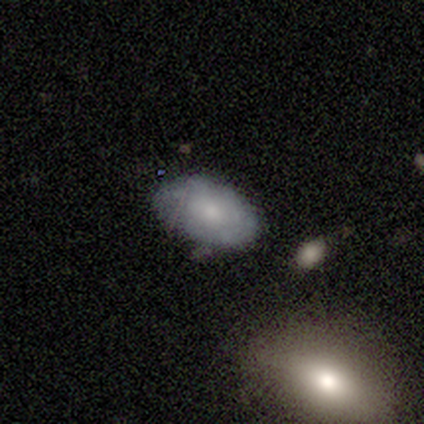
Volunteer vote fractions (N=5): This appears to be a smooth galaxy with no disk features (80%) that is in between round and cigar-shaped (100%). Merging: none (100%).